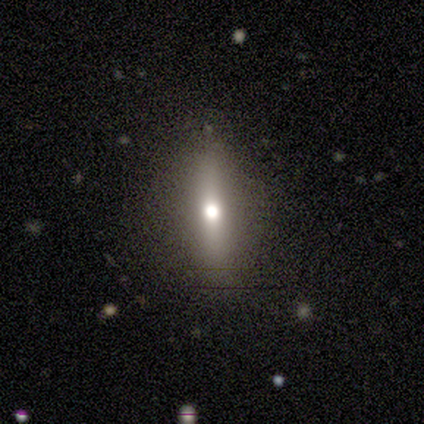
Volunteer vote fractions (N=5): Smooth or featured? smooth (60%)
How rounded? cigar-shaped (67%)
Merging? none (60%)